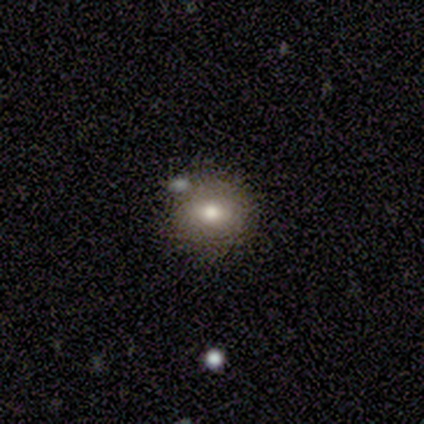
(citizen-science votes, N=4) Smooth or featured?
  - smooth: 100% *
  - featured or disk: 0%
  - star or artifact: 0%
How rounded?
  - round: 100% *
  - in between: 0%
  - cigar-shaped: 0%
Merging?
  - none: 75% *
  - merger: 25%
  - minor disturbance: 0%
  - major disturbance: 0%